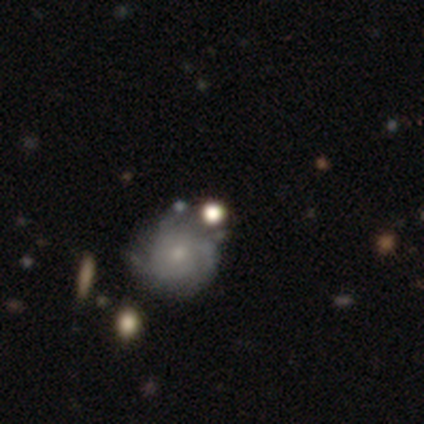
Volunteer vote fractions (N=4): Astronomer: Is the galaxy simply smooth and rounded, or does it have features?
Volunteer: smooth — 75%.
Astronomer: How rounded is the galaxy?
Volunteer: round — 67%.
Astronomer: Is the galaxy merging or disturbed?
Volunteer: minor disturbance — 67%.